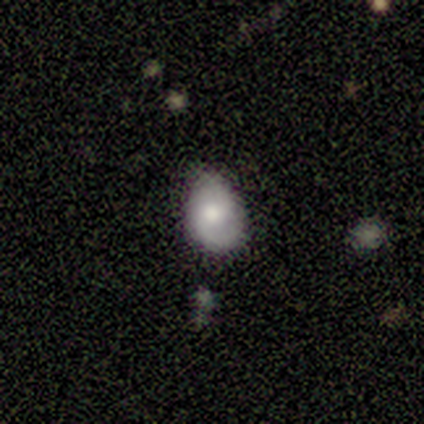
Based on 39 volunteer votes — This appears to be a smooth galaxy with no disk features (51%) that is in between round and cigar-shaped (80%). Merging: none (59%).